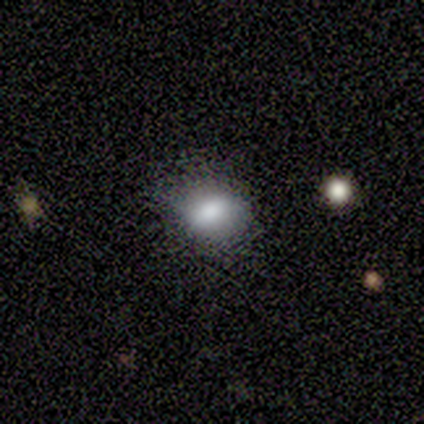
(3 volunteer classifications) Smooth or featured: smooth — 67% (star or artifact — 33%)
How rounded: in between — 100%
Merging: none — 100%